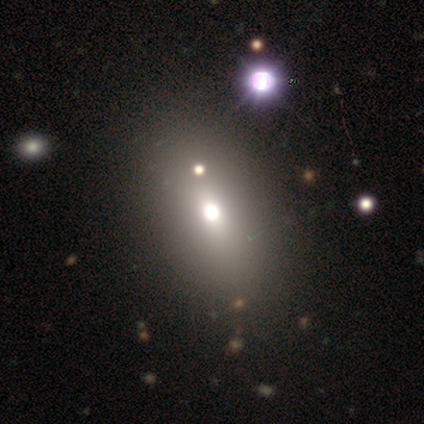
Q: Smooth or featured?
A: smooth (58%); runner-up: star or artifact (25%)
Q: How rounded?
A: in between (100%)
Q: Merging?
A: none (78%); runner-up: minor disturbance (11%)